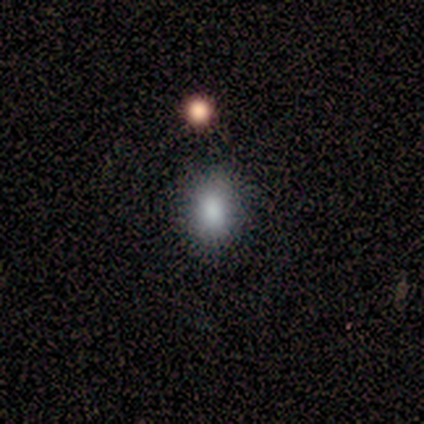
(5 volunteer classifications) Q: Smooth or featured?
A: smooth (100%)
Q: How rounded?
A: round (60%); runner-up: in between (40%)
Q: Merging?
A: none (100%)